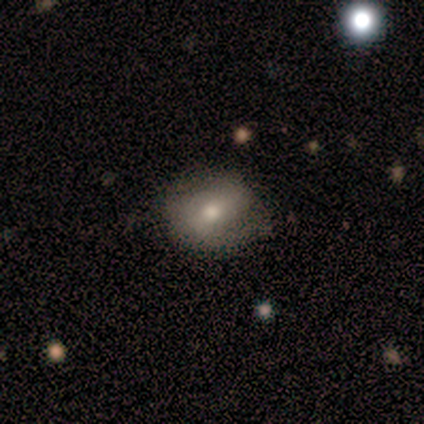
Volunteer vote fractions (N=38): Overall: smooth (55%; featured or disk 39%). How rounded: in between (57%; round 43%). Merging: none (64%).